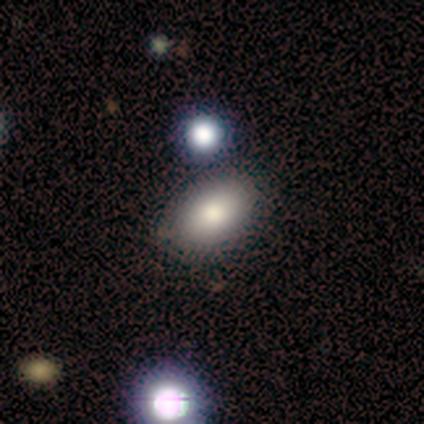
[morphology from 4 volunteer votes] A smooth galaxy with no disk features (50%) that is in between round and cigar-shaped (100%). Merging: none (67%).